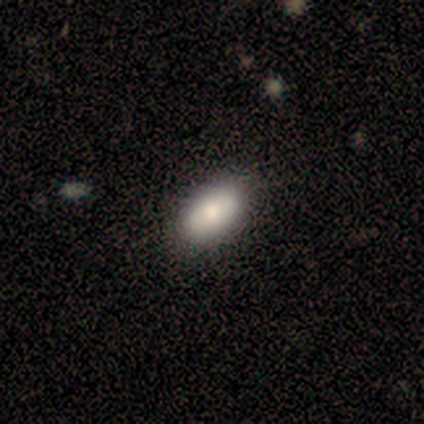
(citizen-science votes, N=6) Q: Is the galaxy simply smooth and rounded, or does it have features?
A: smooth — 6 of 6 (100%).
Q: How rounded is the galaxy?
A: in between — 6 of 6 (100%).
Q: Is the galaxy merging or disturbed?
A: none — 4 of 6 (67%).